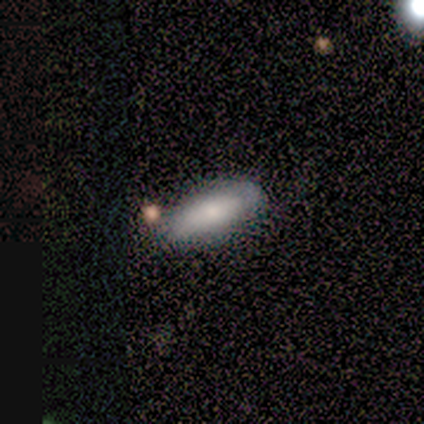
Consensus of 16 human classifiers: A smooth galaxy with no disk features (81%) that is in between round and cigar-shaped (54%). Merging: none (62%).